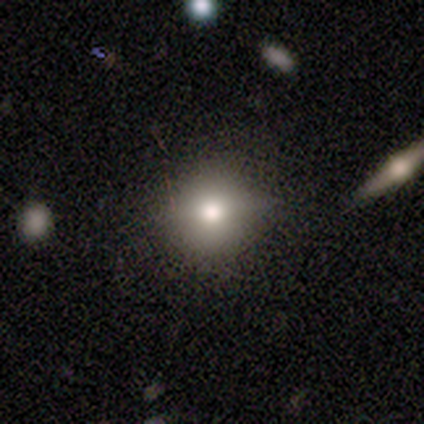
This is clearly a smooth galaxy (100%). How rounded: likely round (60%). Merging: clearly none (100%).